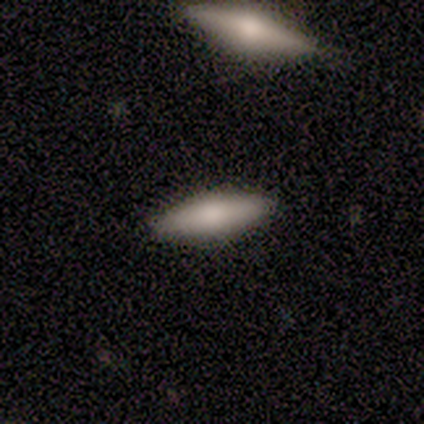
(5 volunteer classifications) Volunteers were most divided on "smooth or featured": smooth: 80%, star or artifact: 20%, featured or disk: 0%. More confident: how rounded — cigar-shaped (100%); merging — none (100%).